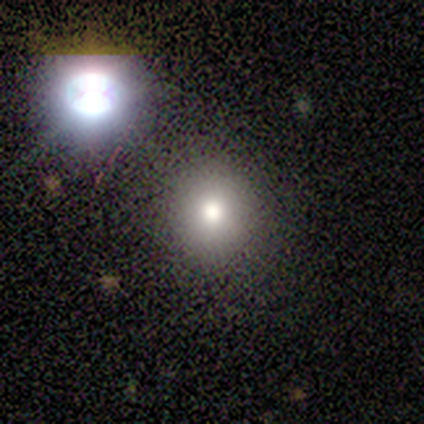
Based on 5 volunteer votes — Smooth or featured? 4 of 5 (80%) said smooth. How rounded? 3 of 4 (75%) said round. Merging? 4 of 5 (80%) said none.